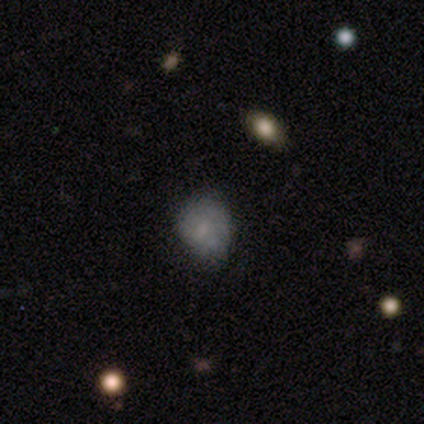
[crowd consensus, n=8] smooth-or-featured: smooth: 62% | featured or disk: 25% | star or artifact: 12%
  how-rounded: round: 100% | in between: 0% | cigar-shaped: 0%
  merging: none: 43% | minor disturbance: 29% | major disturbance: 14% | merger: 14%